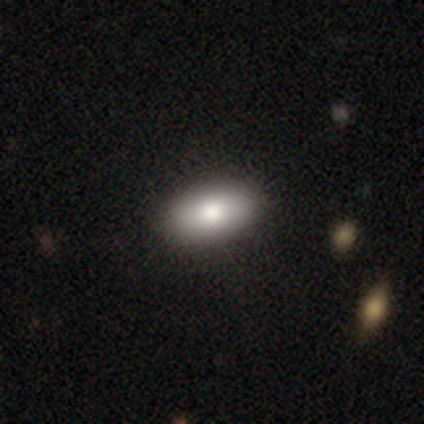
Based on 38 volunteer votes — Smooth or featured: smooth — 87% (featured or disk — 8%)
How rounded: in between — 88% (round — 9%)
Merging: none — 86%